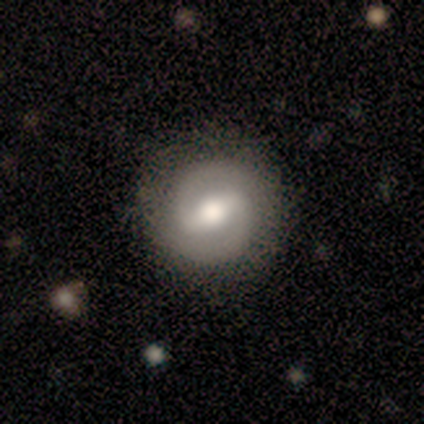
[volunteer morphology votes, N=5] A featured or disk galaxy (60%) with a weak bar (67%), 2 (100%) tight (67%) spiral arms (100%) and a moderate central bulge (67%).

Vote fractions:
- Smooth or featured? featured or disk: 60% / smooth: 40% / star or artifact: 0%
- Edge-on disk? no: 100% / yes: 0%
- Bar? weak: 67% / strong: 33% / no: 0%
- Spiral arms? yes: 100% / no: 0%
- Spiral winding? tight: 67% / medium: 33% / loose: 0%
- Spiral arm count? 2: 100% / 1: 0% / 3: 0% / 4: 0% / more than 4: 0% / can't tell: 0%
- Bulge size? moderate: 67% / small: 33% / dominant: 0% / large: 0% / none: 0%
- Merging? none: 60% / minor disturbance: 40% / major disturbance: 0% / merger: 0%